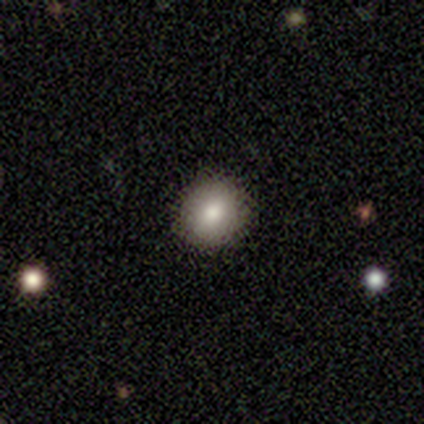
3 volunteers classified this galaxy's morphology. smooth 67%, star or artifact 33%, featured or disk 0%. Down the decision tree: how rounded — round (100%); merging — none (100%).